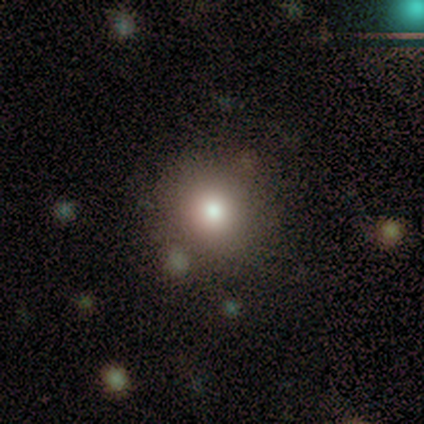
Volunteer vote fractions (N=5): Overall: smooth (80%). How rounded: round (100%). Merging: none (100%).